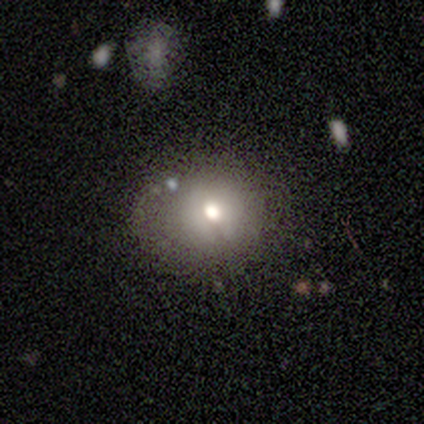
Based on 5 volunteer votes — A smooth galaxy with no disk features (60%) that is round (100%). Merging: none (60%).